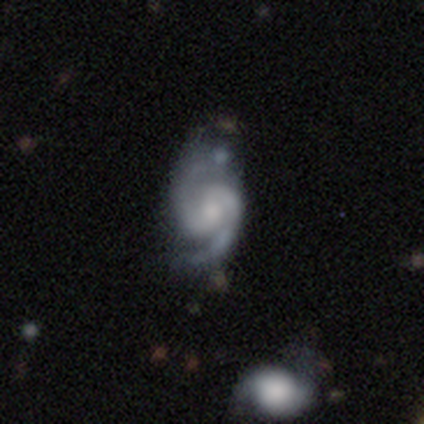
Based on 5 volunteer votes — Q: Smooth or featured?
A: featured or disk (100%)
Q: Edge-on disk?
A: no (100%)
Q: Bar?
A: no (80%); runner-up: weak (20%)
Q: Spiral arms?
A: yes (100%)
Q: Spiral winding?
A: tight (60%); runner-up: medium (40%)
Q: Spiral arm count?
A: 2 (100%)
Q: Bulge size?
A: moderate (40%); runner-up: dominant (20%)
Q: Merging?
A: none (60%); runner-up: minor disturbance (20%)